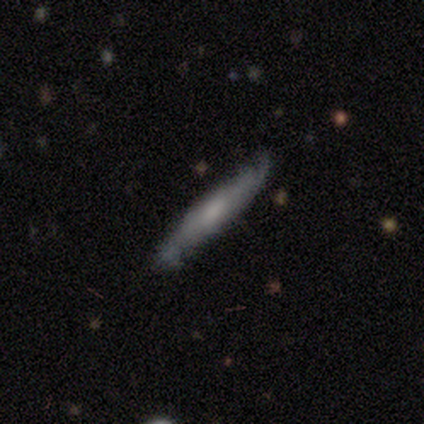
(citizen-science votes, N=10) This is likely a smooth galaxy (70%). How rounded: clearly cigar-shaped (100%). Merging: likely none (60%).